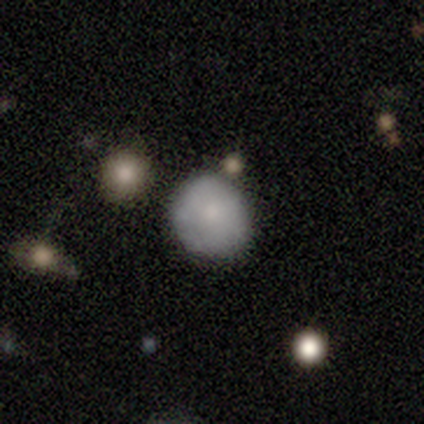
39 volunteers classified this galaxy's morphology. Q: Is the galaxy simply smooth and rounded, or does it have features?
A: smooth — 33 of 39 (85%).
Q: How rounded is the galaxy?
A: round — 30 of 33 (91%).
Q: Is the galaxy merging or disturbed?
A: none — 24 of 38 (63%).